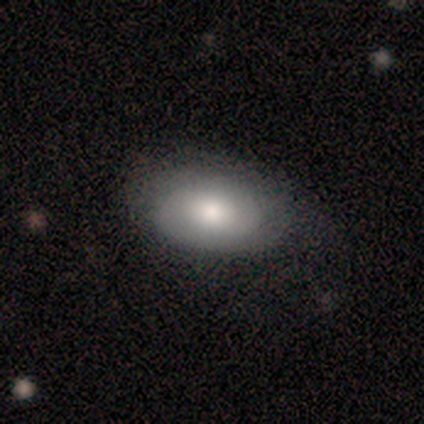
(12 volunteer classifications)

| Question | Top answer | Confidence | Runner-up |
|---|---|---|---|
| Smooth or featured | smooth | 75% | featured or disk (25%) |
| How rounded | in between | 100% | — |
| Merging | none | 75% | minor disturbance (17%) |